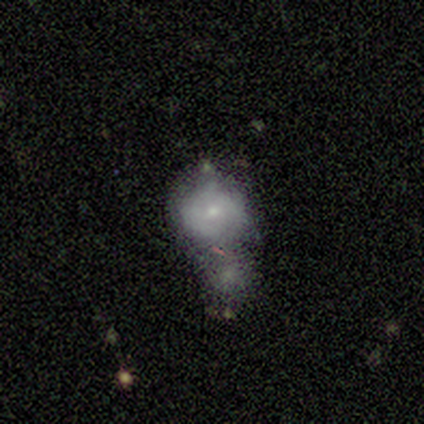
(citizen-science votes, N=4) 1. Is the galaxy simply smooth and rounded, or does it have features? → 50% smooth (tied), 50% featured or disk (tied), 0% star or artifact.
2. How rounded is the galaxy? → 100% round, 0% in between, 0% cigar-shaped.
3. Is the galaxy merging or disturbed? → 50% none, 25% minor disturbance, 25% merger, 0% major disturbance.